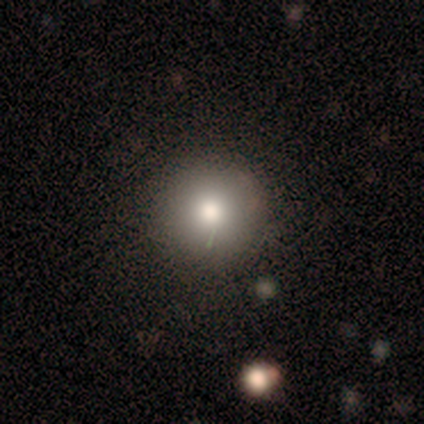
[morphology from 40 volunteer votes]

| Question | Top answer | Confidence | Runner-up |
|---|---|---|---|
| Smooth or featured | smooth | 78% | star or artifact (12%) |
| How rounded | round | 100% | — |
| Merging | none | 91% | minor disturbance (9%) |